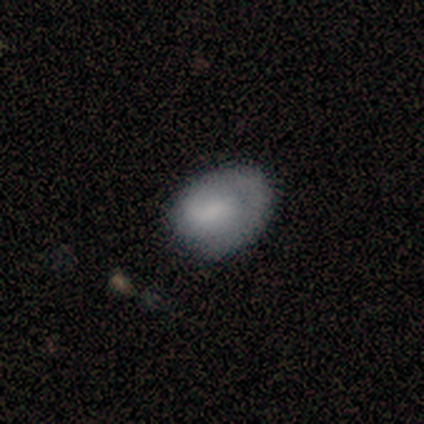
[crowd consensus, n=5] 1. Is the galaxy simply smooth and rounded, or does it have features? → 80% featured or disk, 20% smooth, 0% star or artifact.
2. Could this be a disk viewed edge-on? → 100% no, 0% yes.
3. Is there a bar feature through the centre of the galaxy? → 75% no, 25% weak, 0% strong.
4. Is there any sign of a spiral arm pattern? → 75% yes, 25% no.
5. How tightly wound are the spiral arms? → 67% tight, 33% loose, 0% medium.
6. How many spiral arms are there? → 100% 1, 0% 2, 0% 3, 0% 4, 0% more than 4, 0% can't tell.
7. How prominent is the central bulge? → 50% moderate (tied), 50% none (tied), 0% dominant, 0% large, 0% small.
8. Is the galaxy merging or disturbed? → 80% none, 20% minor disturbance, 0% major disturbance, 0% merger.